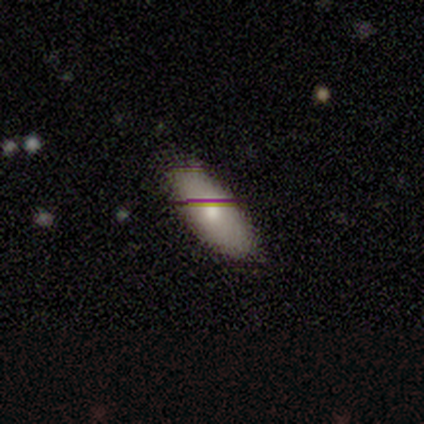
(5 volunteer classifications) Q: Smooth or featured?
A: smooth (60%); runner-up: featured or disk (40%)
Q: How rounded?
A: in between (67%); runner-up: cigar-shaped (33%)
Q: Merging?
A: none (60%); runner-up: minor disturbance (40%)